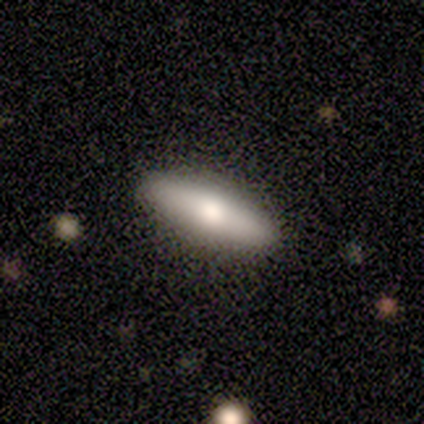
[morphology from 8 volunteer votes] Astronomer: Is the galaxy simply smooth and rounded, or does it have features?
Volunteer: smooth — 75%.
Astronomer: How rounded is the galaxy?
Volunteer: cigar-shaped — 67%.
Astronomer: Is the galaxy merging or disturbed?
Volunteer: none — 62%.